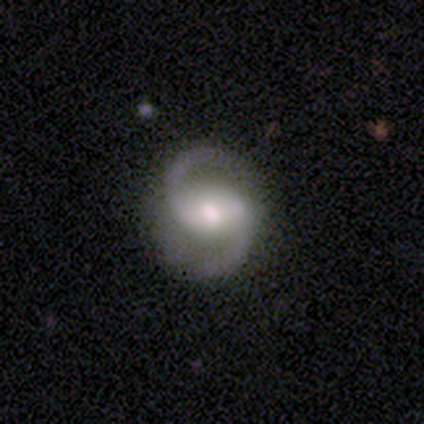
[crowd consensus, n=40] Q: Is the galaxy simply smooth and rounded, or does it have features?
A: featured or disk — 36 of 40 (90%).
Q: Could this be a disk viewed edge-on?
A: no — 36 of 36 (100%).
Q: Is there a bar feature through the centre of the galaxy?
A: weak — 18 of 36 (50%).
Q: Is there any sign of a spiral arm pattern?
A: yes — 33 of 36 (92%).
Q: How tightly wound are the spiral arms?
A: loose — 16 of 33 (48%).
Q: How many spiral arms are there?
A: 2 — 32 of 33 (97%).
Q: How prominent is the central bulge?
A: moderate — 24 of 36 (67%).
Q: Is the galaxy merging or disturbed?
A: none — 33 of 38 (87%).